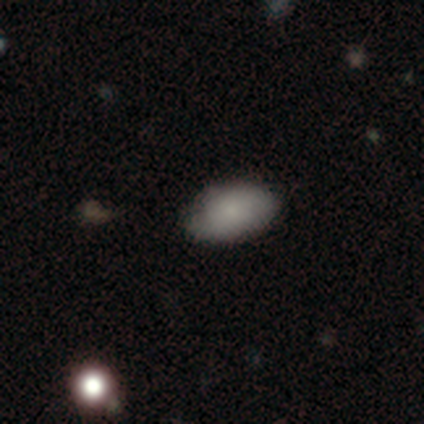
Smooth or featured: smooth — 80% (star or artifact — 20%)
How rounded: in between — 100%
Merging: none — 75% (minor disturbance — 25%)